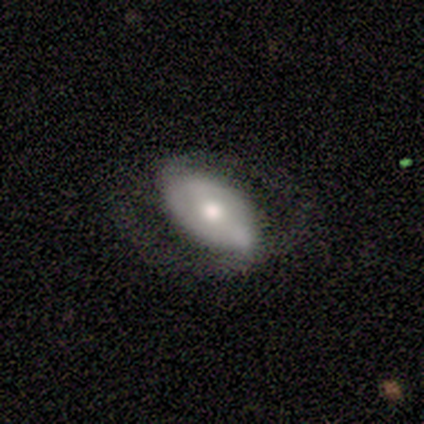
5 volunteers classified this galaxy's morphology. A featured or disk galaxy (80%) with a strong bar (50%, tied with weak), 2 (100%) medium (100%) spiral arms (50%, tied with no) and a large central bulge (50%, tied with moderate). Merging: none (60%).